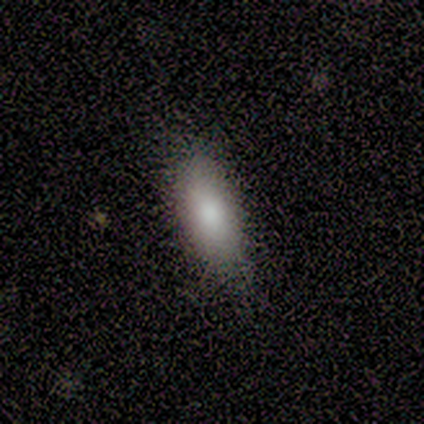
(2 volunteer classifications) Volunteers were most divided on "merging" (2-way tie): none: 50%, minor disturbance: 50%, major disturbance: 0%, merger: 0%. More confident: smooth or featured — smooth (100%); how rounded — in between (100%).